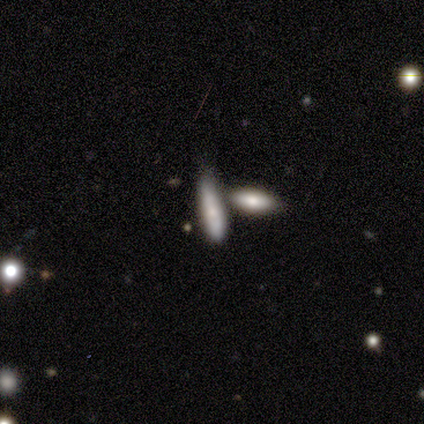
smooth 60%, star or artifact 40%, featured or disk 0%. Down the decision tree: how rounded — cigar-shaped (100%); merging — none (33%, tied with minor disturbance and merger).